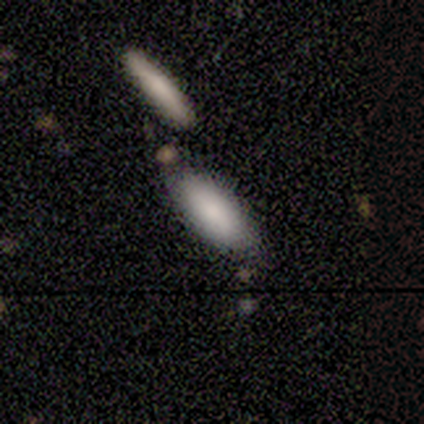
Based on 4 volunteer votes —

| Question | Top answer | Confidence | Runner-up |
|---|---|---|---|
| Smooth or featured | smooth | 75% | featured or disk (25%) |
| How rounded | cigar-shaped | 67% | in between (33%) |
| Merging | none | 75% | merger (25%) |